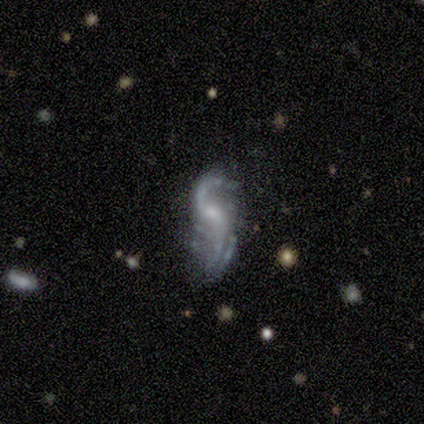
A featured or disk galaxy (100%) with a weak bar (60%), 2 (100%) loose (80%) spiral arms (100%) and a small central bulge (80%).

Vote fractions:
- Smooth or featured? featured or disk: 100% / smooth: 0% / star or artifact: 0%
- Edge-on disk? no: 100% / yes: 0%
- Bar? weak: 60% / no: 40% / strong: 0%
- Spiral arms? yes: 100% / no: 0%
- Spiral winding? loose: 80% / medium: 20% / tight: 0%
- Spiral arm count? 2: 100% / 1: 0% / 3: 0% / 4: 0% / more than 4: 0% / can't tell: 0%
- Bulge size? small: 80% / moderate: 20% / dominant: 0% / large: 0% / none: 0%
- Merging? none: 40% (tied) / major disturbance: 40% (tied) / minor disturbance: 20% / merger: 0%